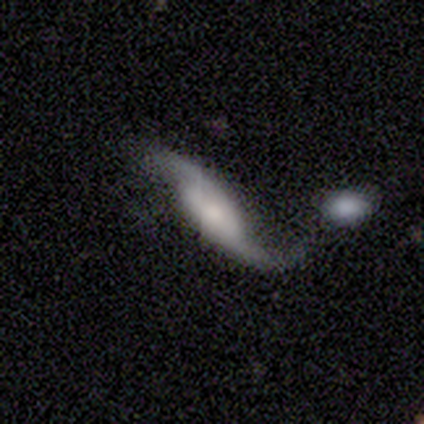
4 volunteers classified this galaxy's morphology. This is likely a featured or disk galaxy (75%). It is clearly not viewed edge-on (100%). Bar: likely no (67%). Spiral arm pattern: clearly yes (100%). Spiral arm count: clearly 2 (100%). Spiral winding: likely loose (67%). Central bulge: likely moderate (67%). Merging: likely none (67%).